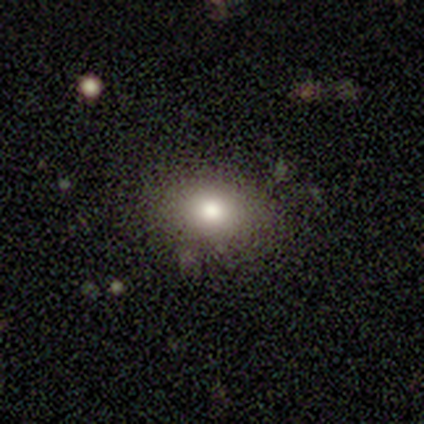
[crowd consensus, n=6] Q: Smooth or featured?
A: smooth (83%); runner-up: featured or disk (17%)
Q: How rounded?
A: in between (80%); runner-up: round (20%)
Q: Merging?
A: none (83%); runner-up: minor disturbance (17%)